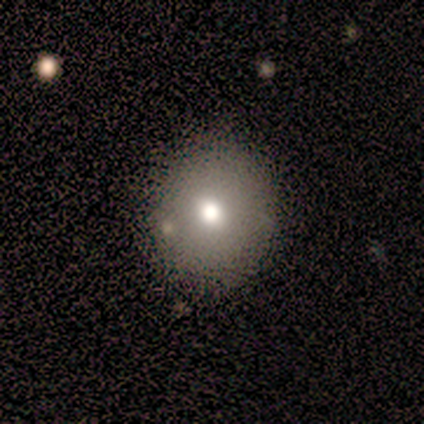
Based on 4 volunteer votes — Smooth or featured? 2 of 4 (50%) said smooth. How rounded? 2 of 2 (100%) said round. Merging? 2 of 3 (67%) said none.